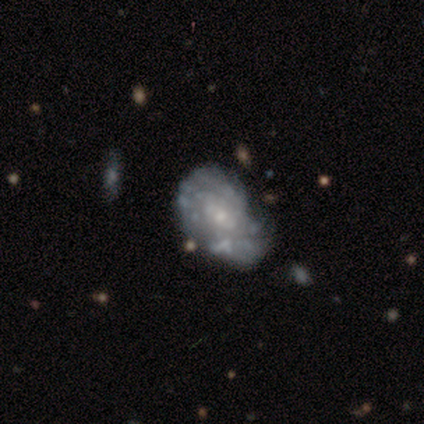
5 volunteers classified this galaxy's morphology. smooth_or_featured: featured or disk (p=1.00)
disk_edge_on: no (p=1.00)
bar: no (p=0.80) [alt: weak p=0.20]
has_spiral_arms: yes (p=0.60) [alt: no p=0.40]
spiral_winding: tight (p=1.00)
spiral_arm_count: can't tell (p=1.00)
bulge_size: moderate (p=0.40) [tied with: small p=0.40]
merging: minor disturbance (p=0.40) [tied with: major disturbance p=0.40]